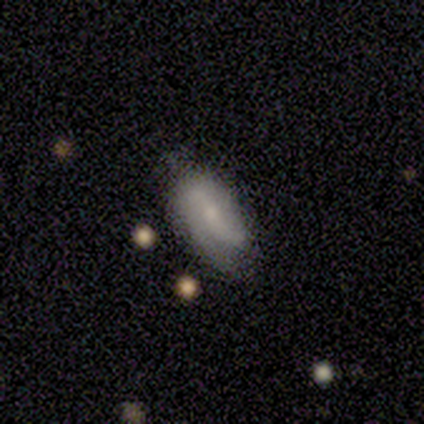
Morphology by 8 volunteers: Volunteers were most divided on "smooth or featured": smooth: 50%, featured or disk: 38%, star or artifact: 12%. More confident: how rounded — in between (100%); merging — none (57%).